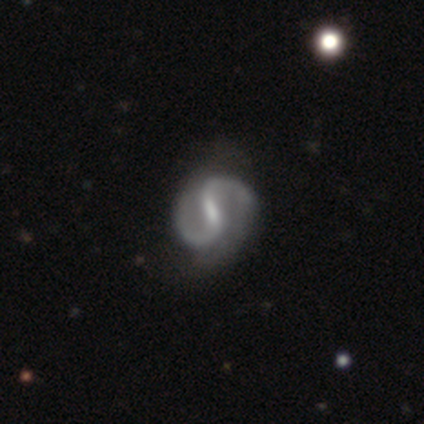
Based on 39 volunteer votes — Overall: featured or disk (95%). Edge-on disk: no (95%). Bar: strong (49%; weak 43%). Spiral arms: yes (94%). Spiral arm count: 2 (100%). Spiral winding: medium (58%; loose 36%). Bulge size: small (57%; moderate 23%). Merging: none (46%; minor disturbance 15%).